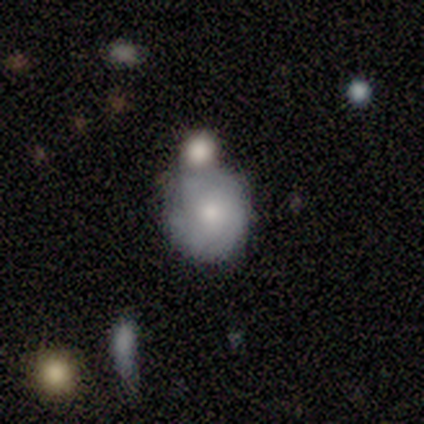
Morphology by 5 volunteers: smooth_or_featured: featured or disk (p=0.80) [alt: smooth p=0.20]
disk_edge_on: no (p=1.00)
bar: no (p=0.75) [alt: weak p=0.25]
has_spiral_arms: yes (p=0.75) [alt: no p=0.25]
spiral_winding: tight (p=0.33) [tied with: medium p=0.33, loose p=0.33]
spiral_arm_count: 3 (p=0.33) [tied with: 4 p=0.33, can't tell p=0.33]
bulge_size: moderate (p=0.50) [tied with: small p=0.50]
merging: none (p=0.60) [alt: merger p=0.40]